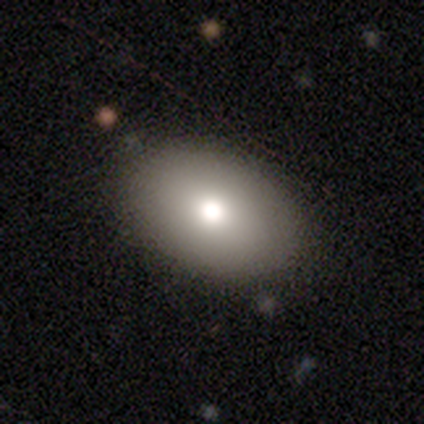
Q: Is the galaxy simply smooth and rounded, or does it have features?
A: smooth — 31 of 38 (82%).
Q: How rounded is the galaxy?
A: in between — 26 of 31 (84%).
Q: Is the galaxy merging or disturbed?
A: none — 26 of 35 (74%).